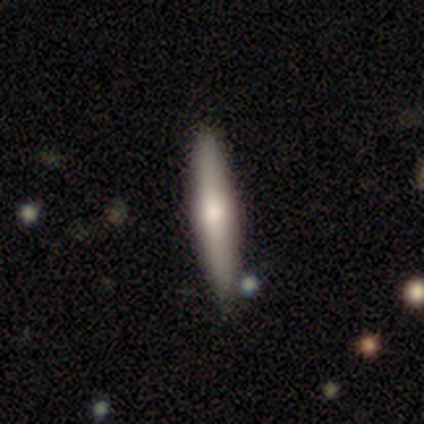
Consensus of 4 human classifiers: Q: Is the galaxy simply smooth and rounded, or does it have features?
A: smooth — 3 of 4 (75%).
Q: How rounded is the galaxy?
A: cigar-shaped — 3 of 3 (100%).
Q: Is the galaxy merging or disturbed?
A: none — 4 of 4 (100%).